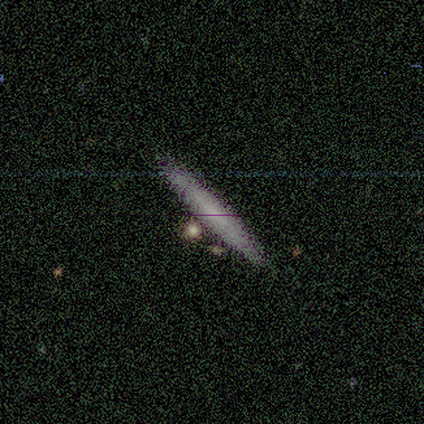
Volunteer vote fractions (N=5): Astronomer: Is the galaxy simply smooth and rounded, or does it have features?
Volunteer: featured or disk — 60% (runner-up: smooth, 40%).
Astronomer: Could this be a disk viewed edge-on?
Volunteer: yes — 67%.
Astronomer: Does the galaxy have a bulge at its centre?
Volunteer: none — 100%.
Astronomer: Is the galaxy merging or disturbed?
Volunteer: none — 80%.